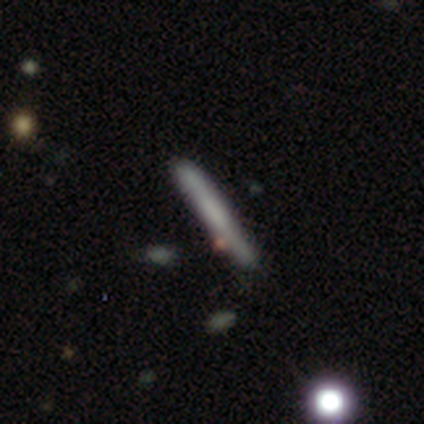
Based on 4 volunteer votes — smooth_or_featured: smooth (p=0.50) [alt: featured or disk p=0.25]
how_rounded: cigar-shaped (p=1.00)
merging: none (p=0.33) [tied with: minor disturbance p=0.33, merger p=0.33]